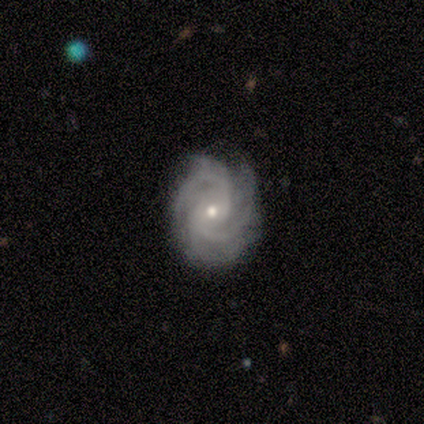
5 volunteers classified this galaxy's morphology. A featured or disk galaxy (80%) with a weak bar (50%), 3 (75%) tight (75%) spiral arms (100%) and a small central bulge (100%).

Vote fractions:
- Smooth or featured? featured or disk: 80% / star or artifact: 20% / smooth: 0%
- Edge-on disk? no: 100% / yes: 0%
- Bar? weak: 50% / strong: 25% / no: 25%
- Spiral arms? yes: 100% / no: 0%
- Spiral winding? tight: 75% / medium: 25% / loose: 0%
- Spiral arm count? 3: 75% / can't tell: 25% / 1: 0% / 2: 0% / 4: 0% / more than 4: 0%
- Bulge size? small: 100% / dominant: 0% / large: 0% / moderate: 0% / none: 0%
- Merging? none: 100% / minor disturbance: 0% / major disturbance: 0% / merger: 0%